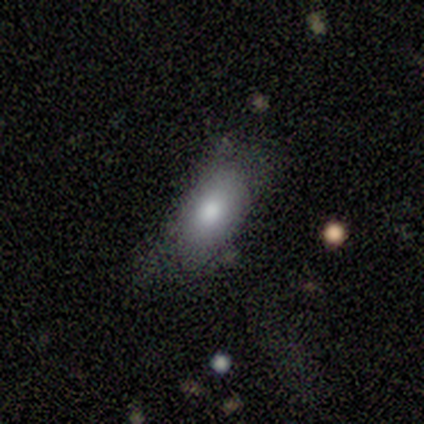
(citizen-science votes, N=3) Smooth or featured? 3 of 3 (100%) said smooth. How rounded? 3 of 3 (100%) said in between. Merging? 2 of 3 (67%) said minor disturbance.